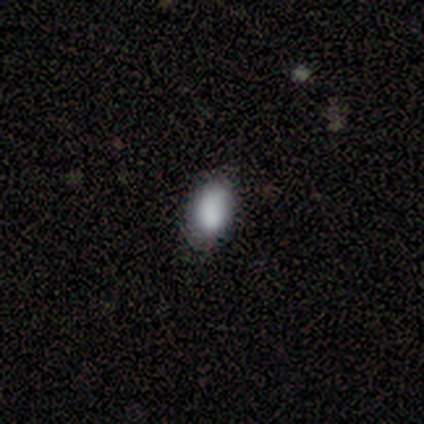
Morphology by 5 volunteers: A smooth galaxy with no disk features (80%) that is in between round and cigar-shaped (100%). Merging: none (75%).